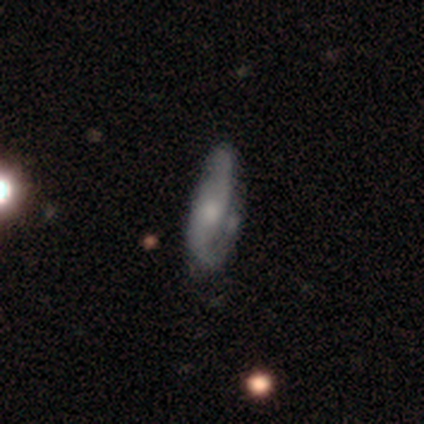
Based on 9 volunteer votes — A smooth galaxy with no disk features (56%) that is in between round and cigar-shaped (60%). Merging: none (56%).